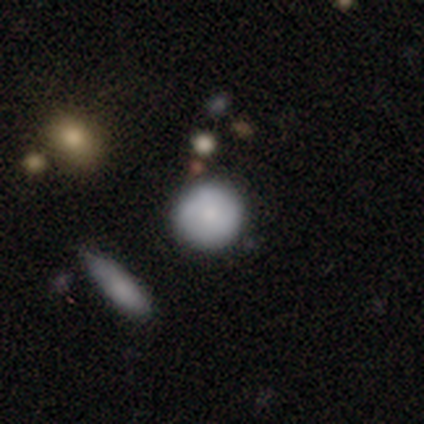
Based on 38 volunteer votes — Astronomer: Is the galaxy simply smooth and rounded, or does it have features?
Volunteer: smooth — 82%.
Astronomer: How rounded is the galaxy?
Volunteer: round — 94%.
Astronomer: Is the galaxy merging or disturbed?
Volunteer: none — 89%.